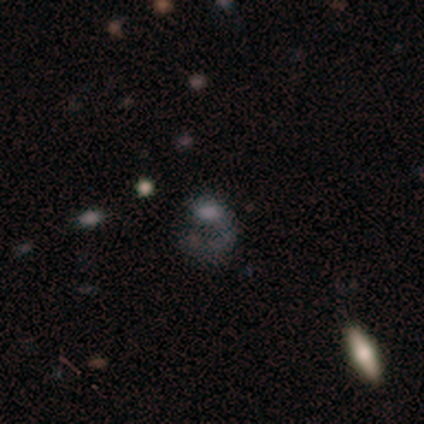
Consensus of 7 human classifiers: smooth_or_featured: star or artifact (p=0.43) [alt: smooth p=0.29]